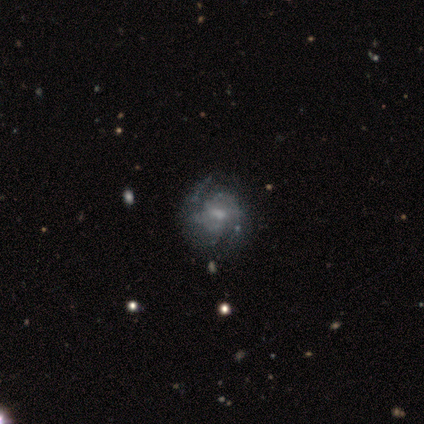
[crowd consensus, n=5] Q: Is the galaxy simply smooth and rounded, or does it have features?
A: featured or disk — 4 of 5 (80%).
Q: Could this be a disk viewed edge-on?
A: no — 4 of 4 (100%).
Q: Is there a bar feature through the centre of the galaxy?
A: weak — 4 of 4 (100%).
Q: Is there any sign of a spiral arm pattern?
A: yes — 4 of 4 (100%).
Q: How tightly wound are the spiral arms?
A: medium — 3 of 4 (75%).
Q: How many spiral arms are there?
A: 2 — 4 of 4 (100%).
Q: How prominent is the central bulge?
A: small — 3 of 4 (75%).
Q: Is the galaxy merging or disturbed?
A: none — 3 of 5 (60%).